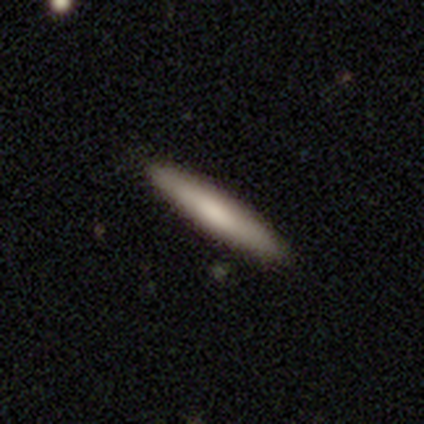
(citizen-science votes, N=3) Overall: smooth (100%). How rounded: cigar-shaped (100%). Merging: none (67%; minor disturbance 33%).